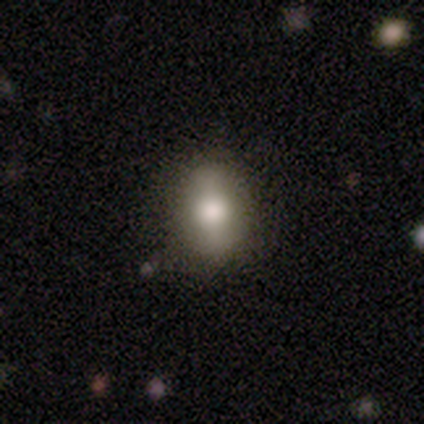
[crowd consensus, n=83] Morphology: type=smooth (65%); roundness=in between (70%); merging=none (84%).